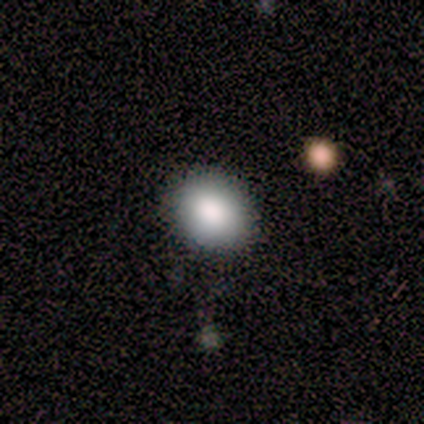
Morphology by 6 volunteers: type=smooth (100%); roundness=round (50%, tied with in between); merging=none (83%).